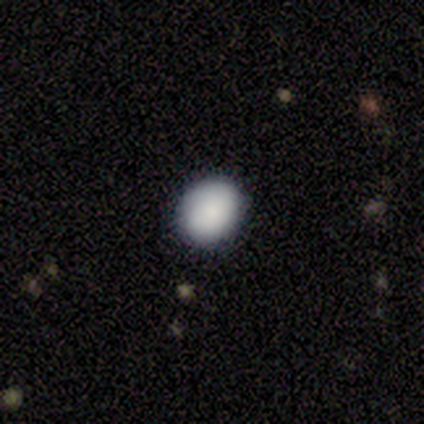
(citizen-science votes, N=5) Overall: smooth (80%). How rounded: round (50%, tied with in between). Merging: none (60%; minor disturbance 40%).